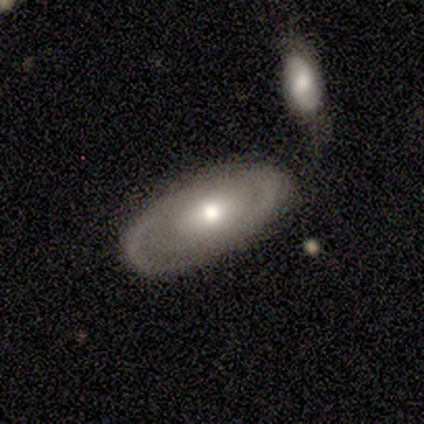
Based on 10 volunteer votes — smooth 50% (tied), featured or disk 50% (tied), star or artifact 0%. Down the decision tree: how rounded — in between (100%); merging — none (90%).